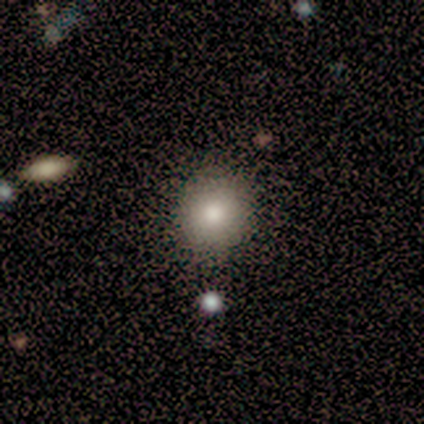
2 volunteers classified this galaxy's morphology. smooth-or-featured: smooth: 50% (tied) | star or artifact: 50% (tied) | featured or disk: 0%
  how-rounded: round: 100% | in between: 0% | cigar-shaped: 0%
  merging: none: 100% | minor disturbance: 0% | major disturbance: 0% | merger: 0%